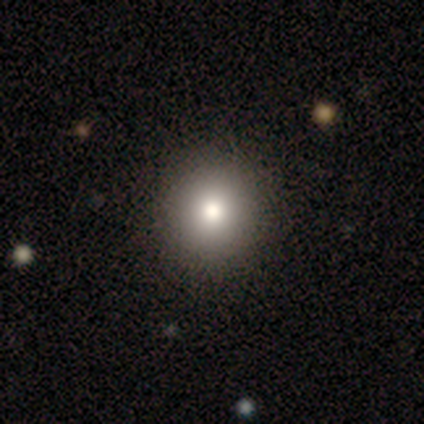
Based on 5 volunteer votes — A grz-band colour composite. It shows a smooth galaxy with no disk features (80%) that is round (75%). Merging: none (100%).